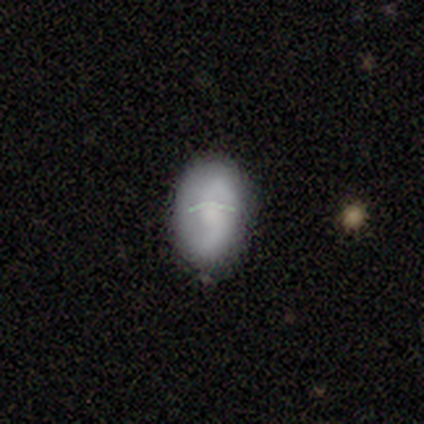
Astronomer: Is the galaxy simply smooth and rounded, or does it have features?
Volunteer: smooth — 57% (runner-up: featured or disk, 38%).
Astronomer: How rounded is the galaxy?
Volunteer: in between — 91%.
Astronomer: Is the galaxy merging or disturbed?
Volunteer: none — 74%.